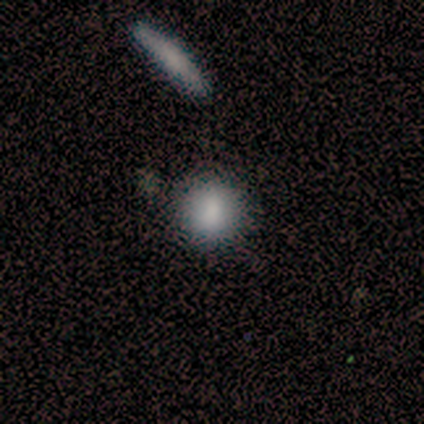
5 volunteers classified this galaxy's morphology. smooth 80%, star or artifact 20%, featured or disk 0%. Down the decision tree: how rounded — round (75%); merging — none (100%).